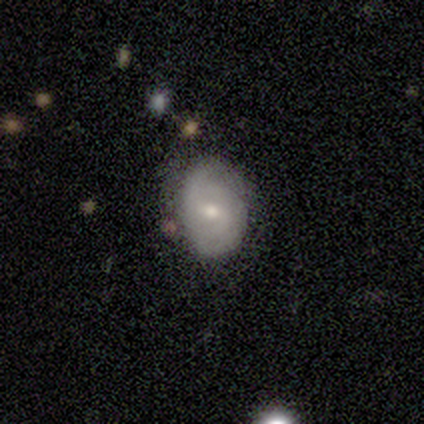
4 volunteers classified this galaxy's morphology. Smooth or featured: featured or disk — 75% (smooth — 25%)
Edge-on disk: no — 100%
Bar: weak — 100%
Spiral arms: yes — 100%
Spiral winding: tight — 67% (medium — 33%)
Spiral arm count: 2 — 67% (3 — 33%)
Bulge size: moderate — 100%
Merging: none — 50% (tied with minor disturbance — 50%)